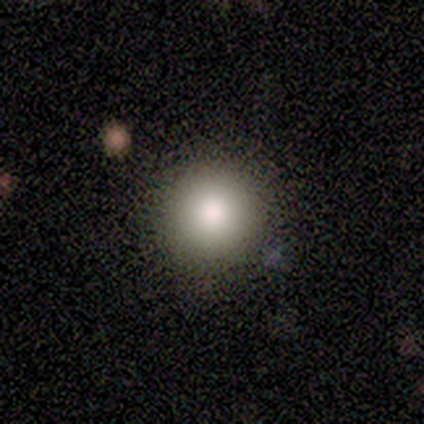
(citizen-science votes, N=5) This appears to be a smooth galaxy with no disk features (100%) that is round (100%). Merging: none (100%).